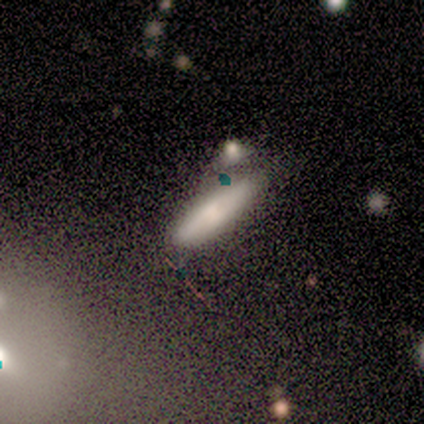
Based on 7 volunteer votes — This appears to be a smooth galaxy with no disk features (43%, tied with featured or disk) that is cigar-shaped (100%). Merging: none (33%, tied with minor disturbance and merger).